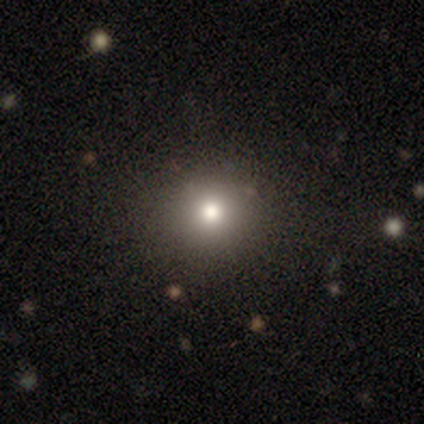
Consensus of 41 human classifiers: Smooth or featured? smooth (61%)
How rounded? round (84%)
Merging? none (89%)